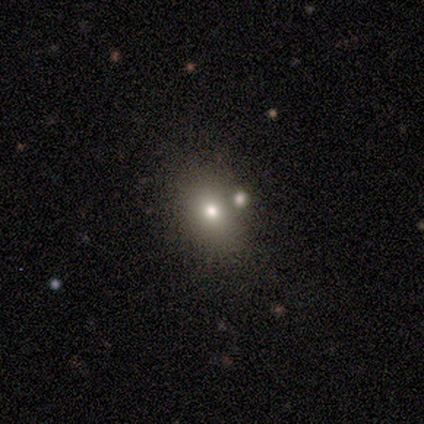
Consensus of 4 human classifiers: Smooth or featured: smooth — 50% (tied with star or artifact — 50%)
How rounded: round — 100%
Merging: none — 100%